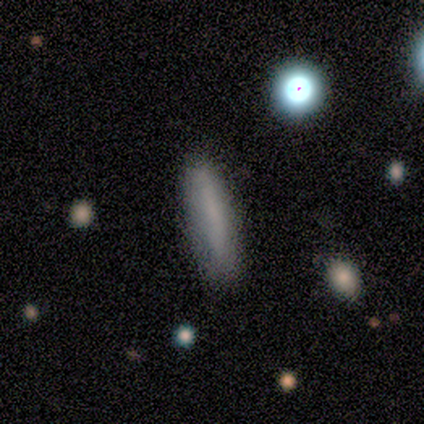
smooth 89%, featured or disk 11%, star or artifact 0%. Down the decision tree: how rounded — cigar-shaped (97%); merging — none (68%).